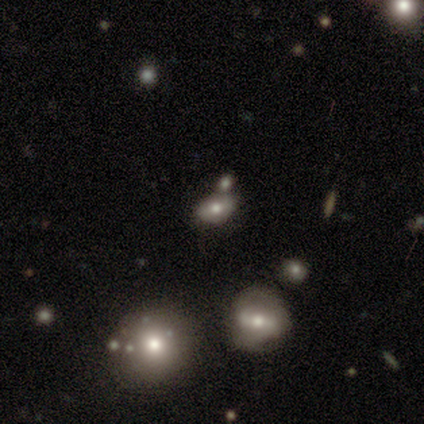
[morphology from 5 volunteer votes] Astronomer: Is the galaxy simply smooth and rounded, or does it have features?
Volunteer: smooth — 40%, tied with featured or disk at 40%.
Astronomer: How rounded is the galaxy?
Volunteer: in between — 100%.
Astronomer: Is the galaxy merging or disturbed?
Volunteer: merger — 75%.